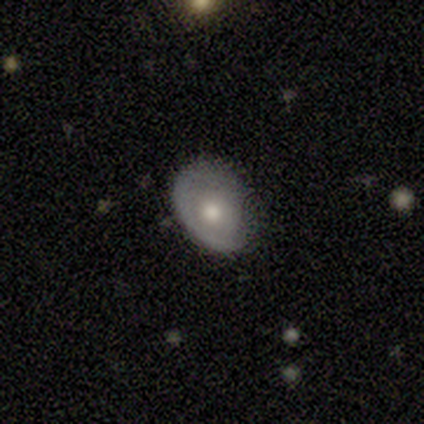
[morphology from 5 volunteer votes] Smooth or featured? 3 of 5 (60%) said featured or disk. Edge-on disk? 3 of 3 (100%) said no. Bar? 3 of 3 (100%) said no. Spiral arms? 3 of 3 (100%) said no. Bulge size? 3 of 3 (100%) said moderate. Merging? 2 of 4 (50%, tied with major disturbance) said none.